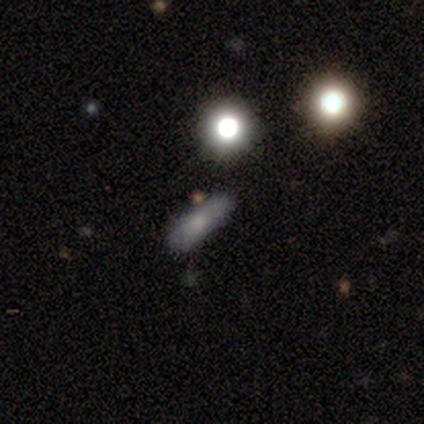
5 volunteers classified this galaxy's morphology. Smooth or featured?
  - smooth: 40% * (tied)
  - star or artifact: 40% * (tied)
  - featured or disk: 20%
How rounded?
  - in between: 100% *
  - round: 0%
  - cigar-shaped: 0%
Merging?
  - none: 67% *
  - merger: 33%
  - minor disturbance: 0%
  - major disturbance: 0%